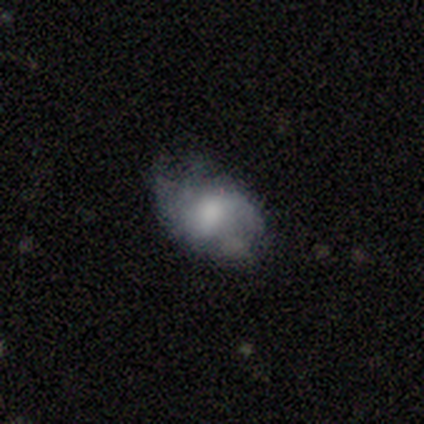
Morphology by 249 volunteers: Smooth or featured: smooth — 57% (featured or disk — 36%)
How rounded: in between — 81% (round — 17%)
Merging: none — 51% (minor disturbance — 34%)